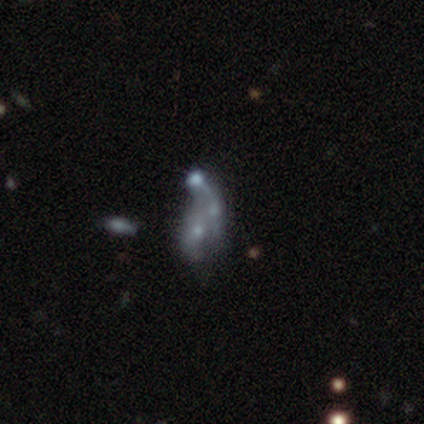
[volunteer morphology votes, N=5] Smooth or featured? 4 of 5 (80%) said featured or disk. Edge-on disk? 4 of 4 (100%) said no. Bar? 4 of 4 (100%) said no. Spiral arms? 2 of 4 (50%, tied with no) said yes. Spiral winding? 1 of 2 (50%, tied with loose) said medium. Spiral arm count? 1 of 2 (50%, tied with can't tell) said 1. Bulge size? 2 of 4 (50%, tied with none) said small. Merging? 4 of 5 (80%) said merger.